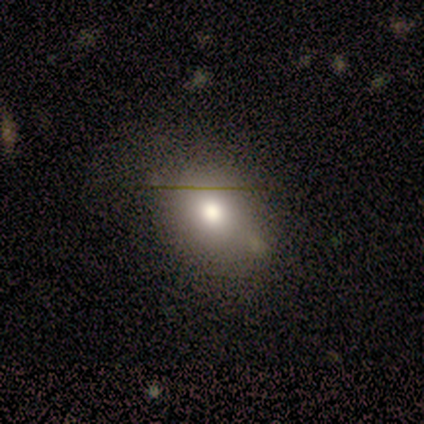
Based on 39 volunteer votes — Overall: smooth (85%). How rounded: in between (70%; round 30%). Merging: none (67%).